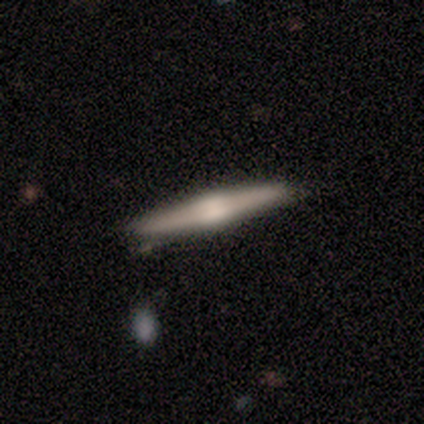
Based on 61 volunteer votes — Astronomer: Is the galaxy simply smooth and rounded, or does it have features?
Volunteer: featured or disk — 74%.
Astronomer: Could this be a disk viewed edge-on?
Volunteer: yes — 100%.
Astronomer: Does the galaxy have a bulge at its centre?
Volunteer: rounded — 78%.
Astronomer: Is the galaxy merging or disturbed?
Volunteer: none — 92%.